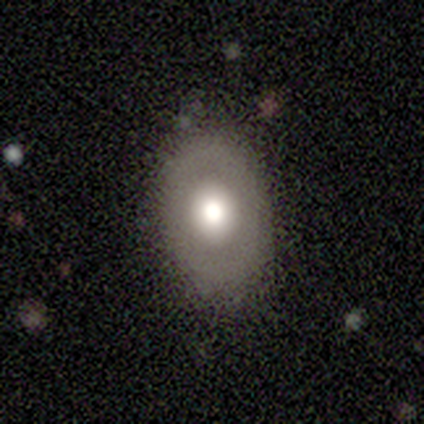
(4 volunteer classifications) smooth_or_featured: smooth (p=0.50) [alt: featured or disk p=0.25]
how_rounded: in between (p=1.00)
merging: none (p=1.00)